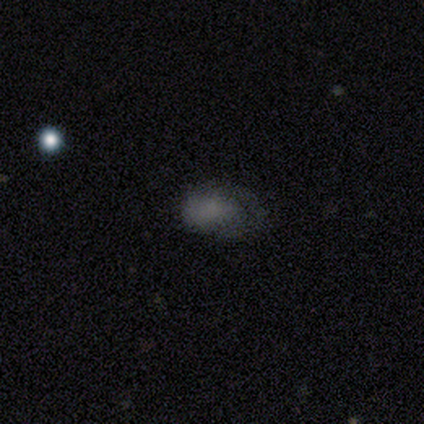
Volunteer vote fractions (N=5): smooth-or-featured: smooth: 80% | featured or disk: 20% | star or artifact: 0%
  how-rounded: in between: 75% | round: 25% | cigar-shaped: 0%
  merging: none: 40% (tied) | minor disturbance: 40% (tied) | major disturbance: 20% | merger: 0%